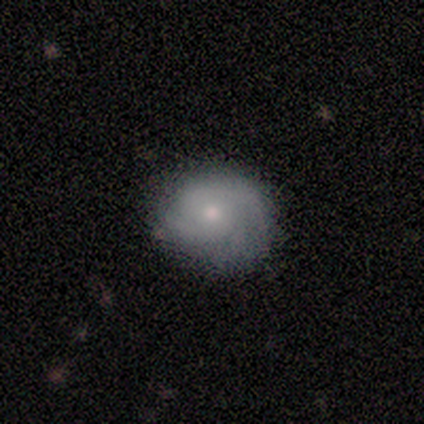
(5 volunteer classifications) smooth_or_featured: featured or disk (p=0.80) [alt: smooth p=0.20]
disk_edge_on: no (p=1.00)
bar: no (p=0.75) [alt: weak p=0.25]
has_spiral_arms: yes (p=1.00)
spiral_winding: medium (p=0.75) [alt: tight p=0.25]
spiral_arm_count: can't tell (p=0.50) [alt: 2 p=0.25]
bulge_size: small (p=0.75) [alt: moderate p=0.25]
merging: none (p=0.80) [alt: minor disturbance p=0.20]